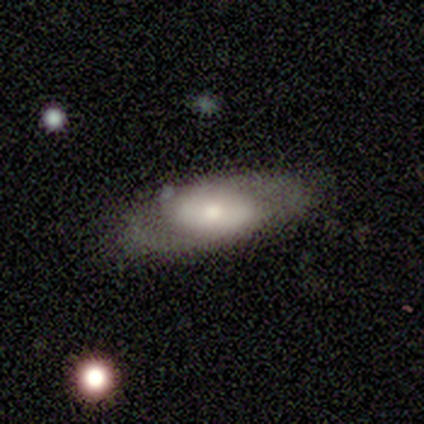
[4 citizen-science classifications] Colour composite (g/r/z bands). It shows a smooth galaxy with no disk features (50%, tied with featured or disk) that is in between round and cigar-shaped (100%). Merging: none (50%).